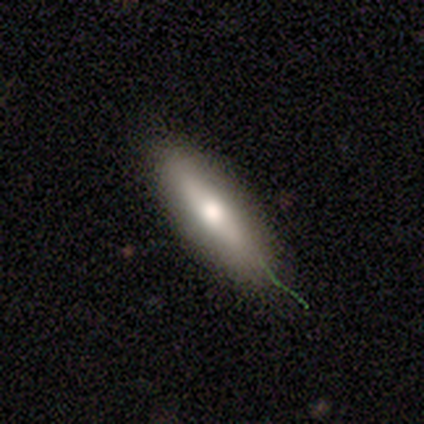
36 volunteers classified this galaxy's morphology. A smooth galaxy with no disk features (56%) that is cigar-shaped (60%). Merging: none (82%).